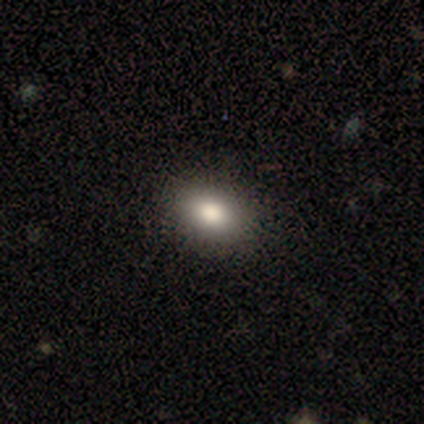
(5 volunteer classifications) Overall: smooth (80%). How rounded: in between (100%). Merging: none (100%).